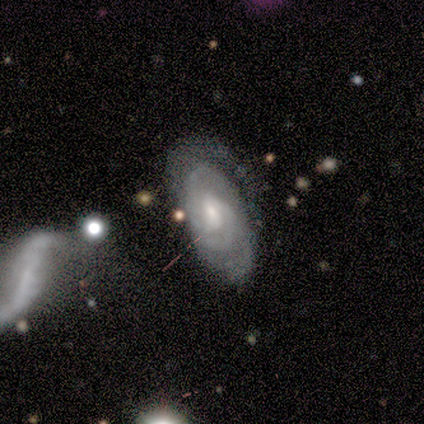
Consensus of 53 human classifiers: Q: Smooth or featured?
A: featured or disk (83%); runner-up: smooth (11%)
Q: Edge-on disk?
A: no (95%); runner-up: yes (5%)
Q: Bar?
A: no (48%); runner-up: weak (45%)
Q: Spiral arms?
A: yes (95%); runner-up: no (5%)
Q: Spiral winding?
A: tight (78%); runner-up: medium (20%)
Q: Spiral arm count?
A: 2 (40%); runner-up: can't tell (25%)
Q: Bulge size?
A: small (62%); runner-up: moderate (33%)
Q: Merging?
A: none (46%); runner-up: minor disturbance (28%)